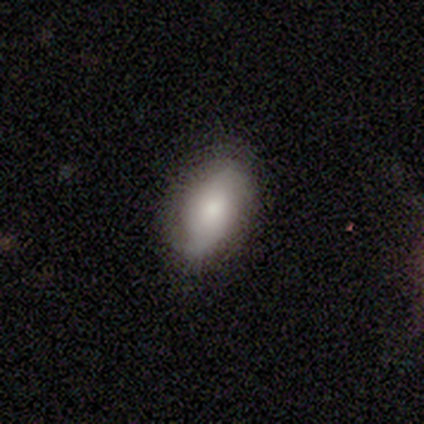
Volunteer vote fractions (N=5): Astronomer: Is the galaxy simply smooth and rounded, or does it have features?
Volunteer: featured or disk — 60% (runner-up: smooth, 40%).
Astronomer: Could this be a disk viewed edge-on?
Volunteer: no — 100%.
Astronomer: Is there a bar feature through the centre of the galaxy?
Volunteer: no — 67%.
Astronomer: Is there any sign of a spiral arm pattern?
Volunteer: yes — 100%.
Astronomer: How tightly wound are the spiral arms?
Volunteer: medium — 67%.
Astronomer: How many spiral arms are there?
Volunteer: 2 — 100%.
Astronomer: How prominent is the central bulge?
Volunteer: small — 100%.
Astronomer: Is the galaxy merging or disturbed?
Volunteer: none — 60%.